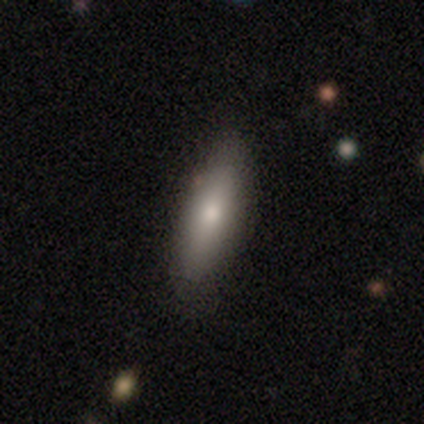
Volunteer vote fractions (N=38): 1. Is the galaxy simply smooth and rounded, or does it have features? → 71% smooth, 24% featured or disk, 5% star or artifact.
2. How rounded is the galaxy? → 63% cigar-shaped, 37% in between, 0% round.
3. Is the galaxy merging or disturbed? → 92% none, 8% minor disturbance, 0% major disturbance, 0% merger.